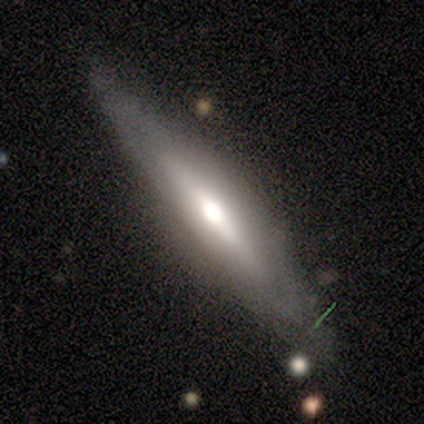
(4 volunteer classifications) smooth_or_featured: featured or disk (p=0.75) [alt: star or artifact p=0.25]
disk_edge_on: yes (p=1.00)
edge_on_bulge: rounded (p=0.67) [alt: boxy p=0.33]
merging: none (p=0.33) [tied with: minor disturbance p=0.33, major disturbance p=0.33]